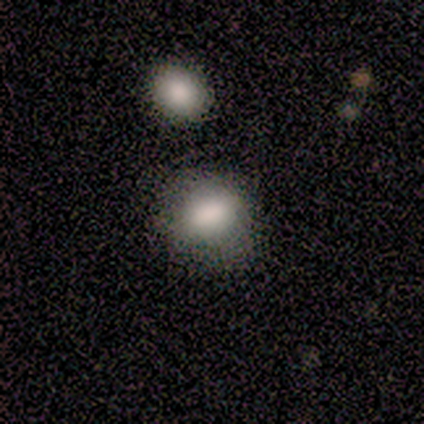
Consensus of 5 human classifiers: Morphology: type=smooth (100%); roundness=round (80%); merging=none (100%).